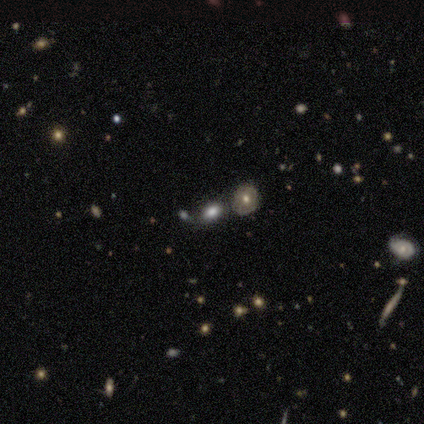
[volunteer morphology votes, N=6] Volunteers were most divided on "smooth or featured": smooth: 67%, star or artifact: 33%, featured or disk: 0%. More confident: how rounded — in between (100%); merging — none (100%).